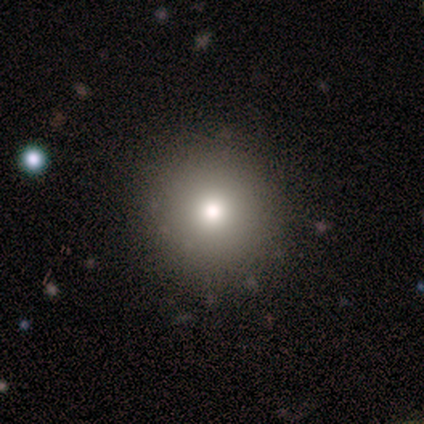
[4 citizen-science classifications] Smooth or featured? smooth (75%)
How rounded? round (100%)
Merging? none (67%)